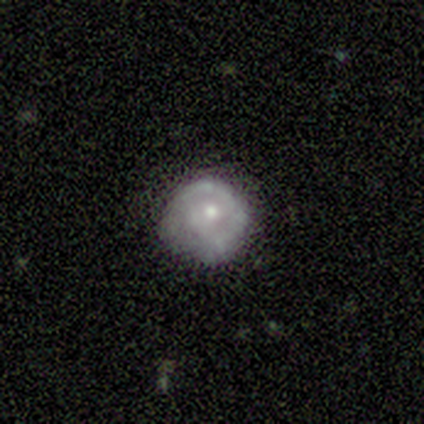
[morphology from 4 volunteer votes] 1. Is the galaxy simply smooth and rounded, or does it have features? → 75% smooth, 25% featured or disk, 0% star or artifact.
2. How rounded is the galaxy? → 100% round, 0% in between, 0% cigar-shaped.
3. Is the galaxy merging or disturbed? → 50% none (tied), 50% minor disturbance (tied), 0% major disturbance, 0% merger.